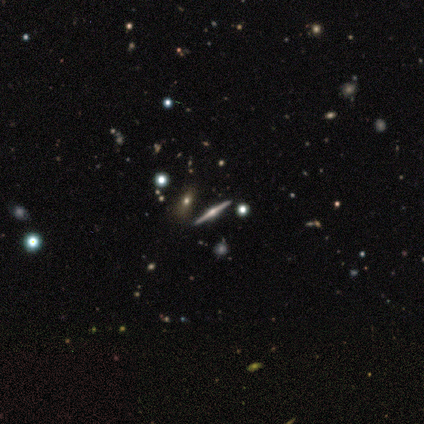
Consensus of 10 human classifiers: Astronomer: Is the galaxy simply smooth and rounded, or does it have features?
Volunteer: featured or disk — 70%.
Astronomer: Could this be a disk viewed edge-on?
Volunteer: yes — 100%.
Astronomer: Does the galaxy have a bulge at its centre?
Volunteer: rounded — 86%.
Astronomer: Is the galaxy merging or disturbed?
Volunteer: none — 100%.